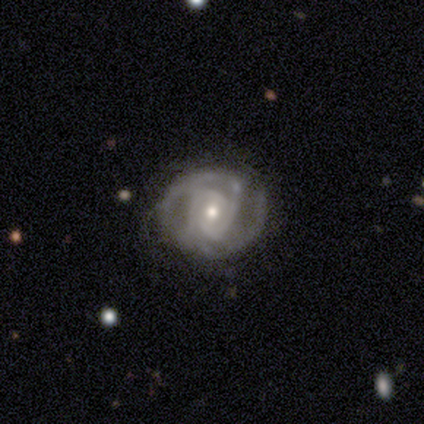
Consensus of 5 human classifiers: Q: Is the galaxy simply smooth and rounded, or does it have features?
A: featured or disk — 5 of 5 (100%).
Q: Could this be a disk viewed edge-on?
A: no — 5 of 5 (100%).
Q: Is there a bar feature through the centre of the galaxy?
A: no — 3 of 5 (60%).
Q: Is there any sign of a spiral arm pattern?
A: yes — 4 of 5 (80%).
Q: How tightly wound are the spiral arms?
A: medium — 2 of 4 (50%).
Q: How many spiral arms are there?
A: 2 — 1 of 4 (25%, tied with 3, 4 and can't tell).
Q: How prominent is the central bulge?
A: moderate — 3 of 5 (60%).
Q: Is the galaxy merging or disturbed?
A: none — 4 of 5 (80%).